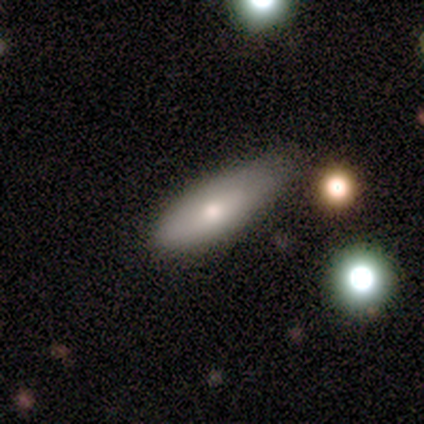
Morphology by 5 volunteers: Q: Smooth or featured?
A: smooth (60%); runner-up: featured or disk (40%)
Q: How rounded?
A: in between (67%); runner-up: cigar-shaped (33%)
Q: Merging?
A: minor disturbance (80%); runner-up: major disturbance (20%)